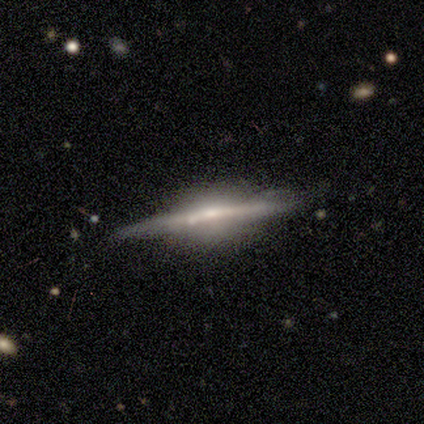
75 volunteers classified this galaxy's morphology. Smooth or featured?
  - featured or disk: 89% *
  - smooth: 7%
  - star or artifact: 4%
Edge-on disk?
  - yes: 99% *
  - no: 1%
Edge-on bulge?
  - rounded: 65% *
  - boxy: 18%
  - none: 17%
Merging?
  - none: 65% *
  - minor disturbance: 24%
  - merger: 7%
  - major disturbance: 4%